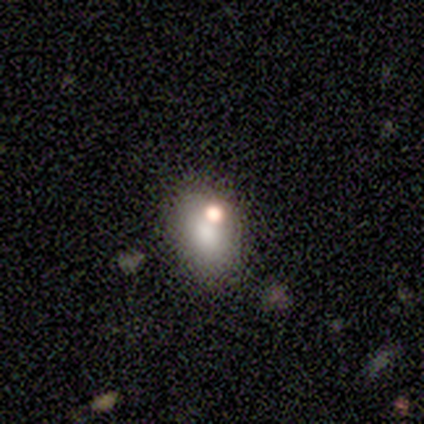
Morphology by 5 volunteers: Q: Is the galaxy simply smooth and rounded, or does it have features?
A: smooth — 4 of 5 (80%).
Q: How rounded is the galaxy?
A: in between — 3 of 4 (75%).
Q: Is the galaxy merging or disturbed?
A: none — 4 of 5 (80%).